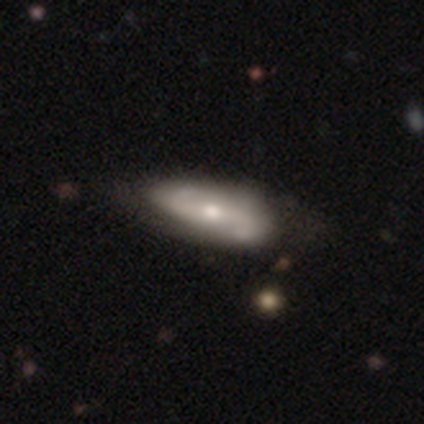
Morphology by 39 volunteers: A featured or disk galaxy (87%) with a weak bar (53%), 2 (97%) loose (55%) spiral arms (97%) and a moderate central bulge (62%).

Vote fractions:
- Smooth or featured? featured or disk: 87% / smooth: 13% / star or artifact: 0%
- Edge-on disk? no: 94% / yes: 6%
- Bar? weak: 53% / strong: 28% / no: 19%
- Spiral arms? yes: 97% / no: 3%
- Spiral winding? loose: 55% / medium: 32% / tight: 13%
- Spiral arm count? 2: 97% / 1: 3% / 3: 0% / 4: 0% / more than 4: 0% / can't tell: 0%
- Bulge size? moderate: 62% / small: 28% / large: 6% / none: 3% / dominant: 0%
- Merging? none: 51% / minor disturbance: 15% / merger: 3% / major disturbance: 0%